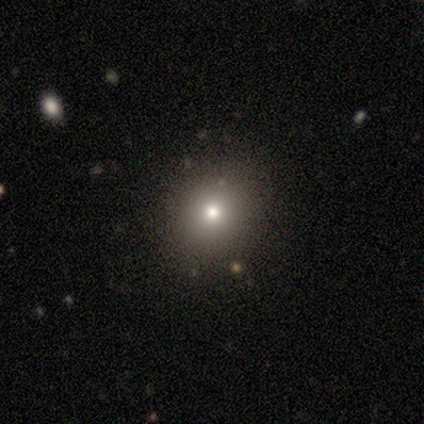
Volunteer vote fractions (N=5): Morphology: type=smooth (40%, tied with featured or disk); roundness=round (50%, tied with in between); merging=minor disturbance (50%).